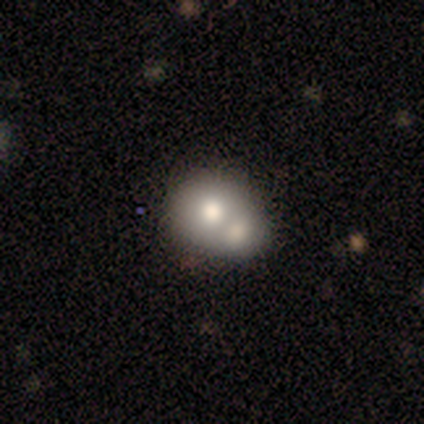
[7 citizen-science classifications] A smooth galaxy with no disk features (57%) that is round (75%).

Vote fractions:
- Smooth or featured? smooth: 57% / featured or disk: 43% / star or artifact: 0%
- How rounded? round: 75% / in between: 25% / cigar-shaped: 0%
- Merging? merger: 100% / none: 0% / minor disturbance: 0% / major disturbance: 0%